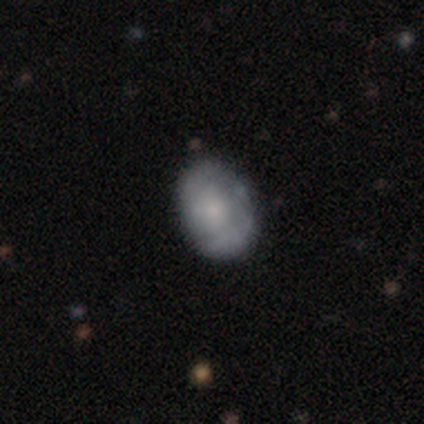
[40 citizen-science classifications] smooth 55%, featured or disk 42%, star or artifact 2%. Down the decision tree: how rounded — in between (73%); merging — none (62%).